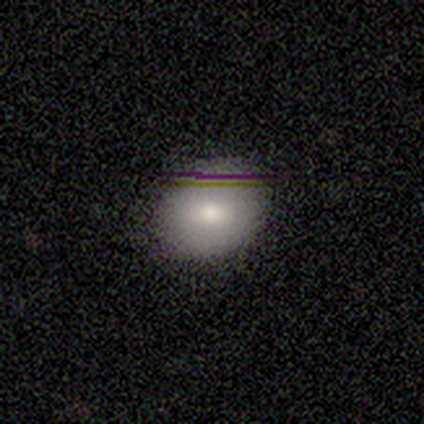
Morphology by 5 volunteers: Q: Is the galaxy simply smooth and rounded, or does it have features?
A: smooth — 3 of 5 (60%).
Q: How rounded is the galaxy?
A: round — 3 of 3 (100%).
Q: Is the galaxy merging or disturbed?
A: none — 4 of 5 (80%).